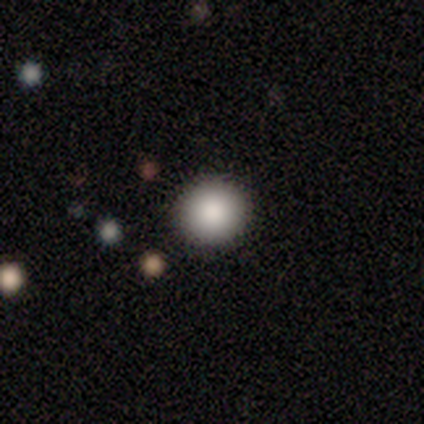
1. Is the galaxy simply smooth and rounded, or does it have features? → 87% smooth, 13% star or artifact, 0% featured or disk.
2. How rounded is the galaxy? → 100% round, 0% in between, 0% cigar-shaped.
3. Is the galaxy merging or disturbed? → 85% none, 8% major disturbance, 8% merger, 0% minor disturbance.